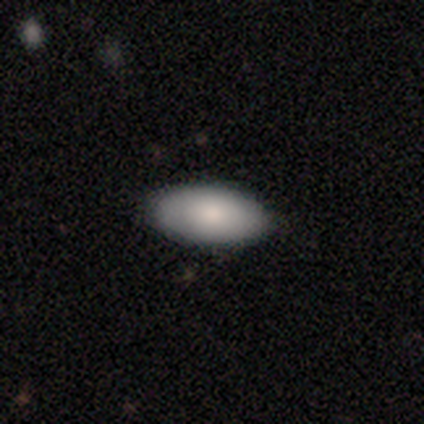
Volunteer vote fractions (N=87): smooth_or_featured: smooth (p=0.79) [alt: featured or disk p=0.14]
how_rounded: in between (p=0.96) [alt: round p=0.03]
merging: none (p=0.90) [alt: minor disturbance p=0.09]